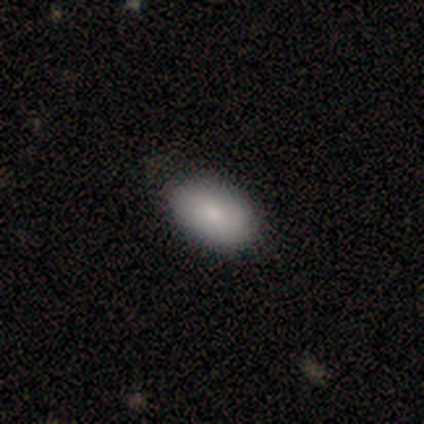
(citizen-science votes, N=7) Overall: smooth (86%). How rounded: in between (100%). Merging: none (83%).